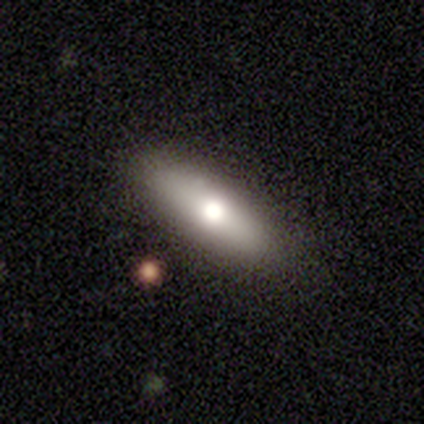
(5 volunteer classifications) featured or disk 60%, smooth 20%, star or artifact 20%. Down the decision tree: edge-on disk — yes (100%); edge-on bulge — rounded (100%); merging — none (75%).